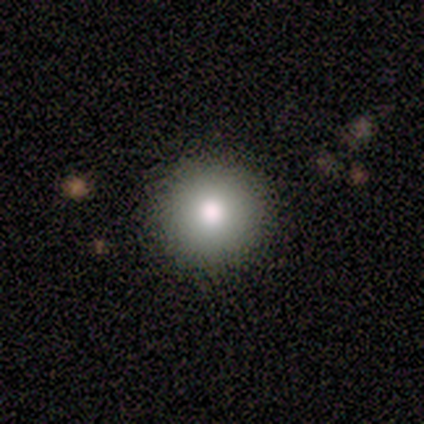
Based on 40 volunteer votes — A smooth galaxy with no disk features (85%) that is round (100%).

Vote fractions:
- Smooth or featured? smooth: 85% / featured or disk: 8% / star or artifact: 8%
- How rounded? round: 100% / in between: 0% / cigar-shaped: 0%
- Merging? none: 97% / major disturbance: 3% / minor disturbance: 0% / merger: 0%